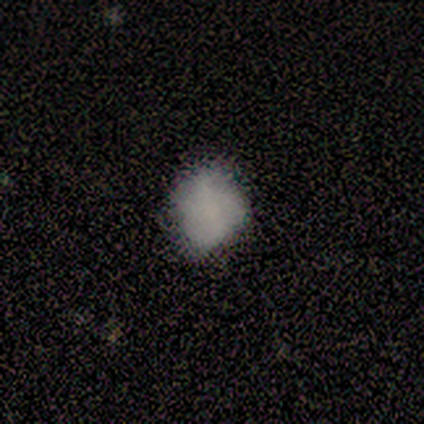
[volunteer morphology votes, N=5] Smooth or featured?
  - smooth: 80% *
  - star or artifact: 20%
  - featured or disk: 0%
How rounded?
  - round: 75% *
  - in between: 25%
  - cigar-shaped: 0%
Merging?
  - none: 100% *
  - minor disturbance: 0%
  - major disturbance: 0%
  - merger: 0%